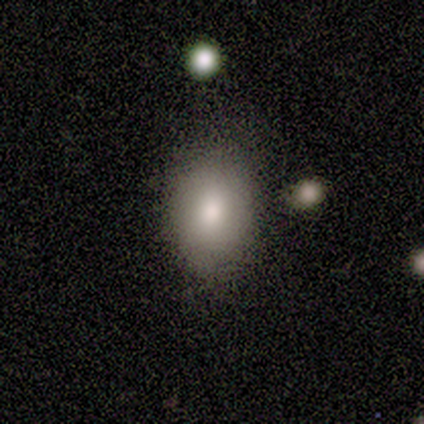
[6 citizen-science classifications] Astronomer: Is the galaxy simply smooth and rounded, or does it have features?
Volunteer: smooth — 100%.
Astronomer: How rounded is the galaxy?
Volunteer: in between — 67%.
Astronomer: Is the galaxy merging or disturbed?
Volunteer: none — 83%.